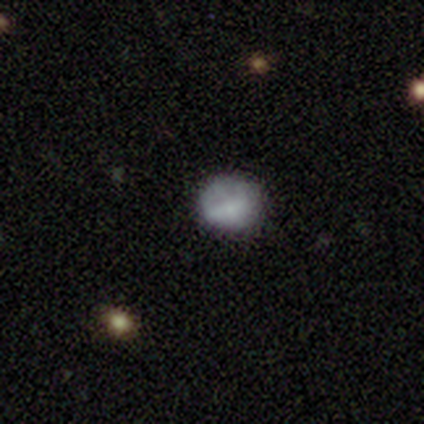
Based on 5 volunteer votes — This is clearly a smooth galaxy (80%). How rounded: clearly round (100%). Merging: clearly none (100%).